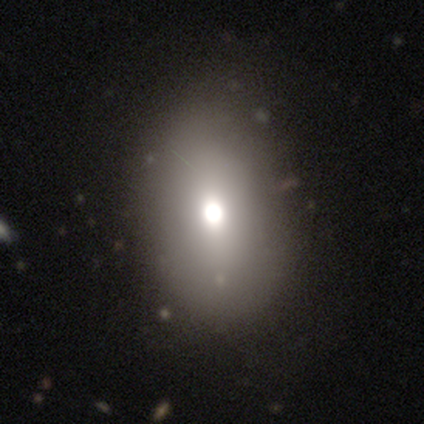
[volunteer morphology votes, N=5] This is clearly a smooth galaxy (80%). How rounded: clearly in between (100%). Merging: likely none (75%).